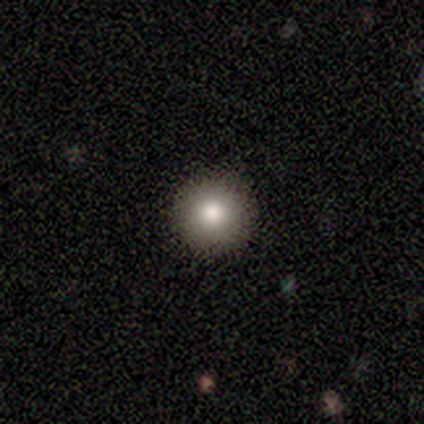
Volunteers were most divided on "smooth or featured": smooth: 75%, star or artifact: 25%, featured or disk: 0%. More confident: how rounded — round (100%); merging — none (83%).